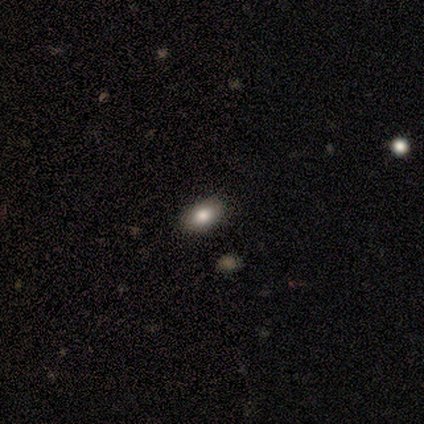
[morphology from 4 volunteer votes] A smooth galaxy with no disk features (75%) that is in between round and cigar-shaped (67%).

Vote fractions:
- Smooth or featured? smooth: 75% / featured or disk: 25% / star or artifact: 0%
- How rounded? in between: 67% / round: 33% / cigar-shaped: 0%
- Merging? none: 75% / minor disturbance: 25% / major disturbance: 0% / merger: 0%